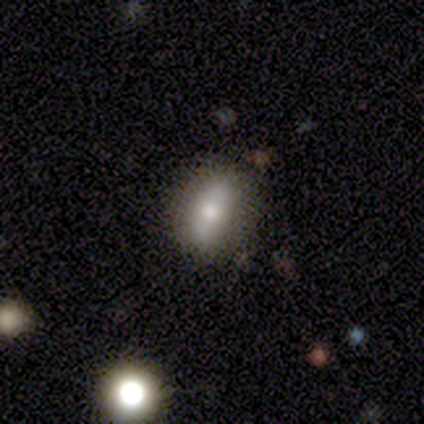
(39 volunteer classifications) Smooth or featured? smooth (54%)
How rounded? in between (67%)
Merging? none (81%)